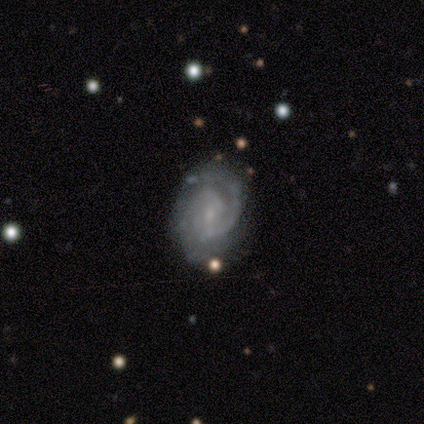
smooth_or_featured: featured or disk (p=0.85) [alt: star or artifact p=0.10]
disk_edge_on: no (p=1.00)
bar: no (p=0.45) [alt: weak p=0.42]
has_spiral_arms: yes (p=0.97) [alt: no p=0.03]
spiral_winding: tight (p=0.66) [alt: medium p=0.34]
spiral_arm_count: 2 (p=0.84) [alt: 1 p=0.06]
bulge_size: small (p=0.73) [alt: moderate p=0.18]
merging: none (p=0.89) [alt: minor disturbance p=0.09]